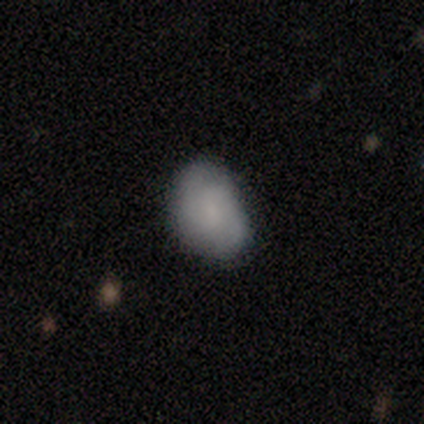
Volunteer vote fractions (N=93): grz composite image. It shows a smooth galaxy with no disk features (68%) that is in between round and cigar-shaped (84%). Merging: none (62%).